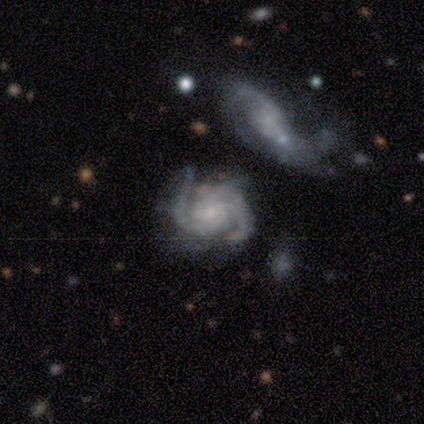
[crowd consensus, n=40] A featured or disk galaxy (92%) with no bar (69%), 2 (64%) tight (52%) spiral arms (94%) and a small central bulge (83%). Merging: none (36%).